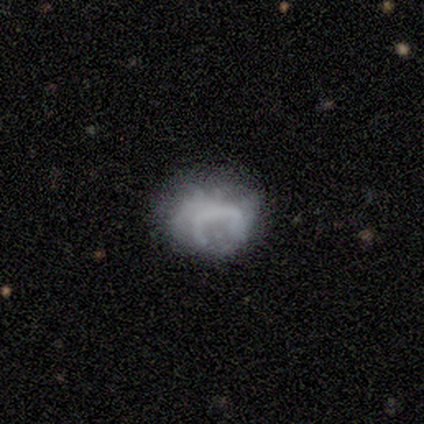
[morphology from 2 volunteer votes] smooth-or-featured: featured or disk: 100% | smooth: 0% | star or artifact: 0%
  disk-edge-on: no: 100% | yes: 0%
    bar: no: 100% | strong: 0% | weak: 0%
    has-spiral-arms: no: 100% | yes: 0%
    bulge-size: none: 100% | dominant: 0% | large: 0% | moderate: 0% | small: 0%
  merging: none: 50% (tied) | minor disturbance: 50% (tied) | major disturbance: 0% | merger: 0%